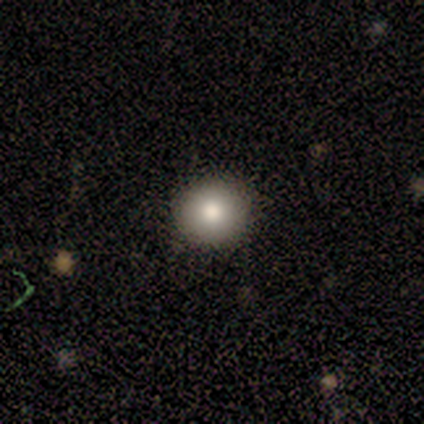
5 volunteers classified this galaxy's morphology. Smooth or featured? smooth (100%)
How rounded? round (100%)
Merging? none (100%)